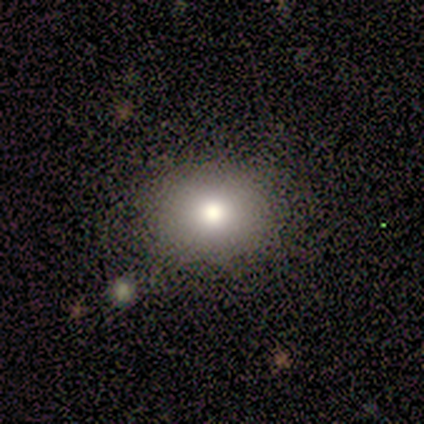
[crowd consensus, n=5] Smooth or featured? 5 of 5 (100%) said smooth. How rounded? 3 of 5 (60%) said round. Merging? 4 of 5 (80%) said none.